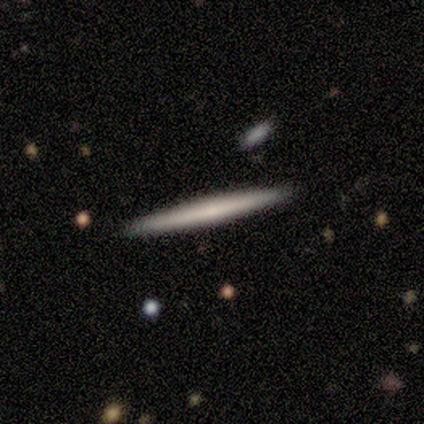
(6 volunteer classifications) Smooth or featured: smooth — 50% (featured or disk — 33%)
How rounded: cigar-shaped — 100%
Merging: none — 80% (minor disturbance — 20%)